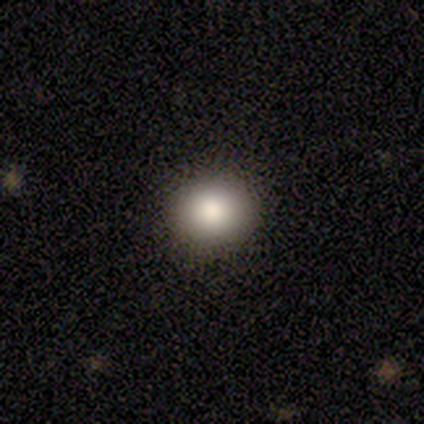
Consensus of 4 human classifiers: smooth 75%, star or artifact 25%, featured or disk 0%. Down the decision tree: how rounded — round (100%); merging — none (100%).